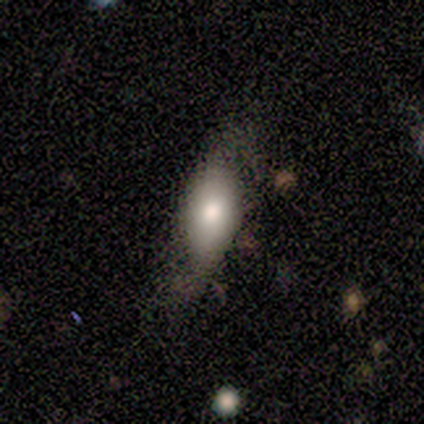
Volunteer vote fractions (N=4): Volunteers were most divided on "how rounded" (2-way tie): round: 50%, in between: 50%, cigar-shaped: 0%. More confident: merging — none (67%); smooth or featured — smooth (50%).